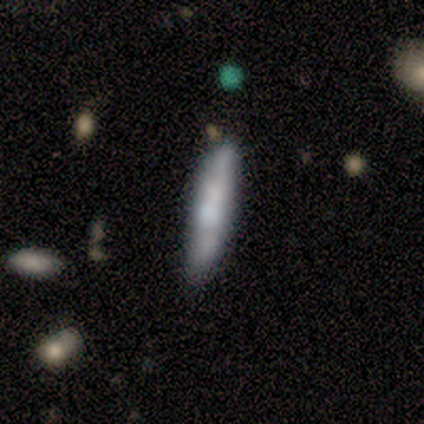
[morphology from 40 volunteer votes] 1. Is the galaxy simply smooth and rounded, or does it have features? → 48% smooth, 42% featured or disk, 10% star or artifact.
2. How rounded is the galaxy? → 89% cigar-shaped, 5% round, 5% in between.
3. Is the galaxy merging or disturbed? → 78% none, 14% merger, 8% minor disturbance, 0% major disturbance.